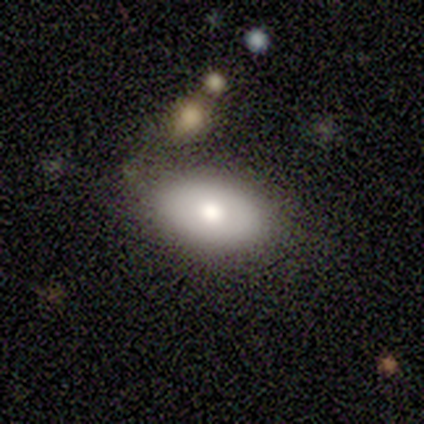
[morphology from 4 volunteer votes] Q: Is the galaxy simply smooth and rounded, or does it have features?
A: featured or disk — 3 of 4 (75%).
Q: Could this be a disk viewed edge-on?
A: no — 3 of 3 (100%).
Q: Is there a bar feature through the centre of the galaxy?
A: no — 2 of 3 (67%).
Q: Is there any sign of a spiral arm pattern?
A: no — 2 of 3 (67%).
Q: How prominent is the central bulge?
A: moderate — 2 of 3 (67%).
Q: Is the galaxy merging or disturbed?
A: none — 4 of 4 (100%).